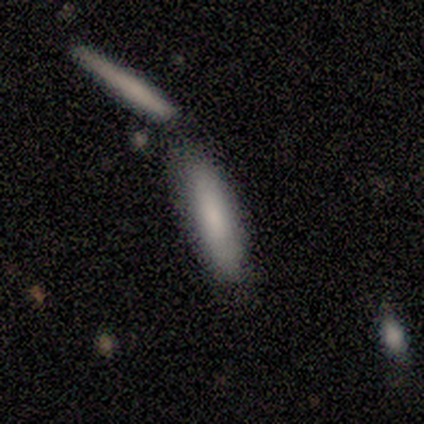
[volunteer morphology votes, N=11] Q: Smooth or featured?
A: smooth (64%); runner-up: featured or disk (18%)
Q: How rounded?
A: cigar-shaped (71%); runner-up: in between (29%)
Q: Merging?
A: none (78%); runner-up: minor disturbance (11%)